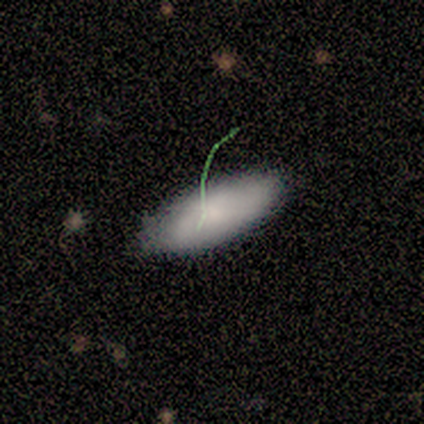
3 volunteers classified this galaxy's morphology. Overall: smooth (67%; featured or disk 33%). How rounded: in between (100%). Merging: none (100%).